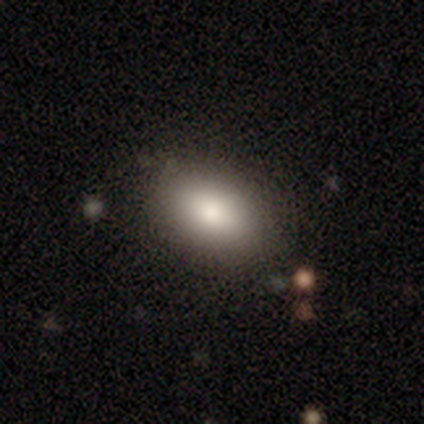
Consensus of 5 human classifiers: smooth-or-featured: smooth: 100% | featured or disk: 0% | star or artifact: 0%
  how-rounded: in between: 100% | round: 0% | cigar-shaped: 0%
  merging: none: 100% | minor disturbance: 0% | major disturbance: 0% | merger: 0%